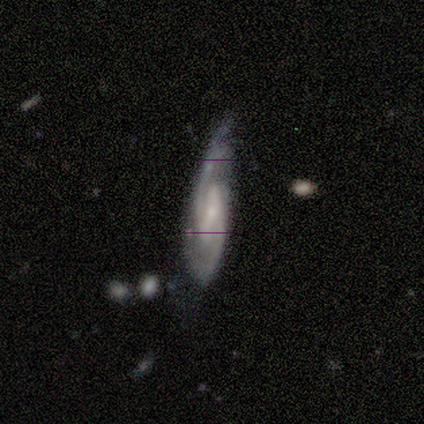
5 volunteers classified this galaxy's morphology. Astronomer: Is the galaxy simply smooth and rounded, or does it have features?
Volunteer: featured or disk — 100%.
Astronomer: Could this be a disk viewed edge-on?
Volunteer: no — 100%.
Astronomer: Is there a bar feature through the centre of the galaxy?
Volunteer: strong — 60% (runner-up: weak, 40%).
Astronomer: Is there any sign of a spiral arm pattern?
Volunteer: yes — 100%.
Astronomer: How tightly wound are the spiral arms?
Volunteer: medium — 60% (runner-up: tight, 40%).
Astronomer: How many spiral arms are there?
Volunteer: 2 — 100%.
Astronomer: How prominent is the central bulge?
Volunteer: small — 80%.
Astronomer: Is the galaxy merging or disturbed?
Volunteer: none — 80%.